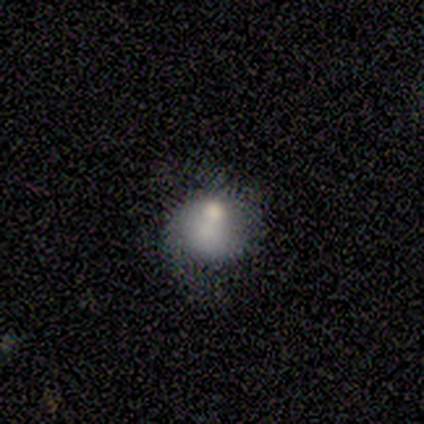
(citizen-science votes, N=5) Smooth or featured?
  - smooth: 60% *
  - featured or disk: 40%
  - star or artifact: 0%
How rounded?
  - round: 100% *
  - in between: 0%
  - cigar-shaped: 0%
Merging?
  - none: 40% * (tied)
  - minor disturbance: 40% * (tied)
  - major disturbance: 20%
  - merger: 0%